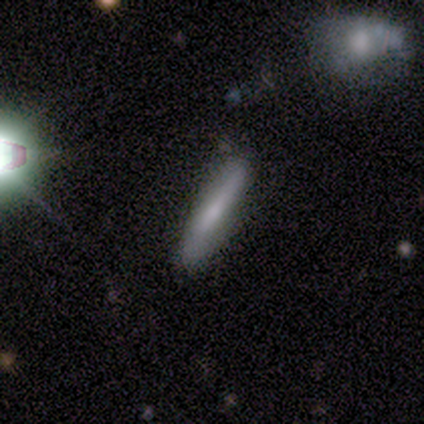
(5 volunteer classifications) Overall: featured or disk (60%; smooth 20%). Edge-on disk: yes (67%; no 33%). Edge-on bulge: none (100%). Merging: none (100%).